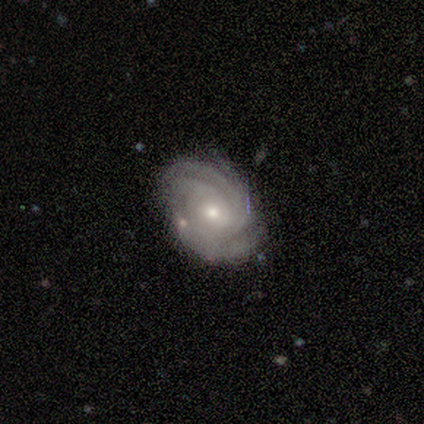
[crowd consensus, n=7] smooth-or-featured: featured or disk: 86% | star or artifact: 14% | smooth: 0%
  disk-edge-on: no: 100% | yes: 0%
    bar: no: 83% | weak: 17% | strong: 0%
    has-spiral-arms: yes: 100% | no: 0%
      spiral-winding: tight: 50% (tied) | medium: 50% (tied) | loose: 0%
      spiral-arm-count: 2: 33% (tied) | 4: 33% (tied) | can't tell: 33% (tied) | 1: 0% | 3: 0% | more than 4: 0%
    bulge-size: small: 67% | large: 17% | moderate: 17% | dominant: 0% | none: 0%
  merging: none: 100% | minor disturbance: 0% | major disturbance: 0% | merger: 0%